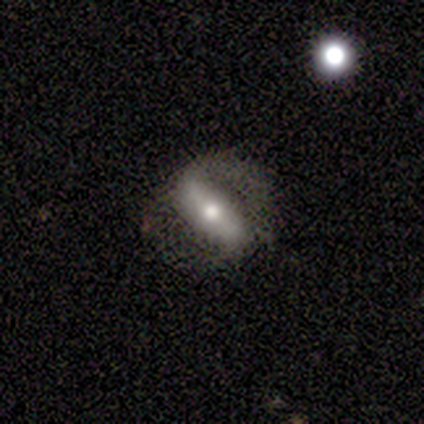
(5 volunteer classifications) Smooth or featured? 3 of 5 (60%) said featured or disk. Edge-on disk? 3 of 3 (100%) said no. Bar? 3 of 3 (100%) said strong. Spiral arms? 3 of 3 (100%) said yes. Spiral winding? 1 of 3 (33%, tied with medium and loose) said tight. Spiral arm count? 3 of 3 (100%) said 2. Bulge size? 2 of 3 (67%) said moderate. Merging? 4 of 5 (80%) said none.